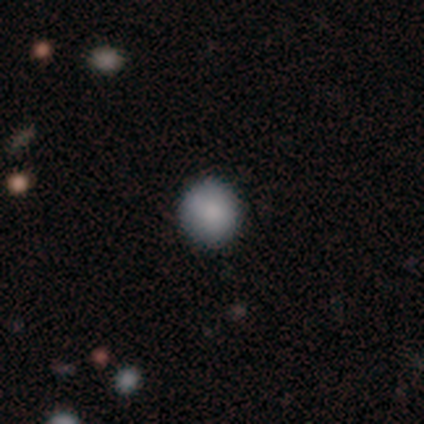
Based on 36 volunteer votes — smooth 92%, featured or disk 6%, star or artifact 3%. Down the decision tree: how rounded — round (91%); merging — none (91%).